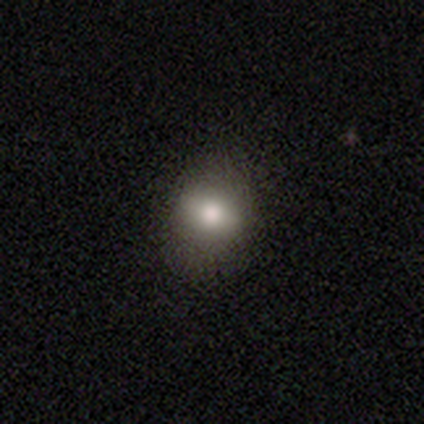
Volunteers were most divided on "how rounded": round: 55%, in between: 42%, cigar-shaped: 3%. More confident: smooth or featured — smooth (82%); merging — none (62%).